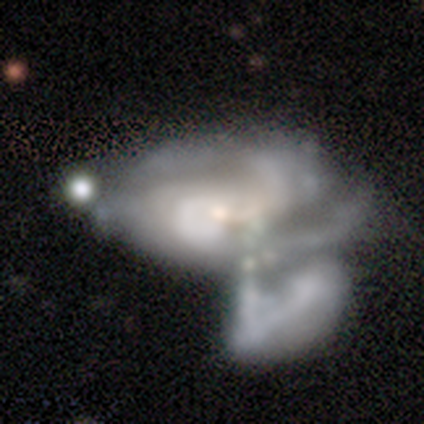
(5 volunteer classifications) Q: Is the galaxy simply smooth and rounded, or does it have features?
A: featured or disk — 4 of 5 (80%).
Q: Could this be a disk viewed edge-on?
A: no — 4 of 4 (100%).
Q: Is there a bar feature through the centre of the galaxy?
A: no — 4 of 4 (100%).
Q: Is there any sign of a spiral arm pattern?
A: yes — 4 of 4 (100%).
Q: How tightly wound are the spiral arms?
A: loose — 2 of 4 (50%).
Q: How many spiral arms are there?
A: can't tell — 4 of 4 (100%).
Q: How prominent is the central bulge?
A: none — 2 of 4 (50%).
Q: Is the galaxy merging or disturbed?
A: minor disturbance — 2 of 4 (50%).